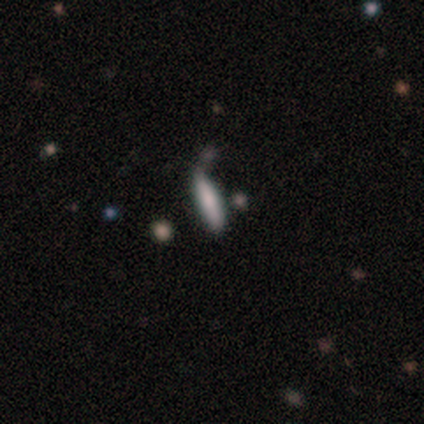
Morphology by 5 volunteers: Q: Smooth or featured?
A: smooth (60%); runner-up: featured or disk (40%)
Q: How rounded?
A: cigar-shaped (100%)
Q: Merging?
A: none (40%); tied with: minor disturbance (40%)